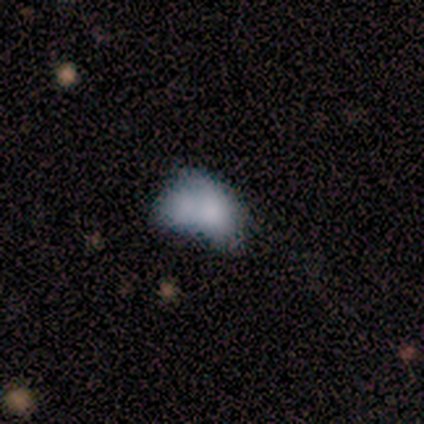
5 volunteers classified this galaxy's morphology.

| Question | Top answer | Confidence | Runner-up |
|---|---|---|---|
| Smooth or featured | smooth | 80% | featured or disk (20%) |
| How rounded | in between | 100% | — |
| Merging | major disturbance | 40% | tied: merger (40%) |